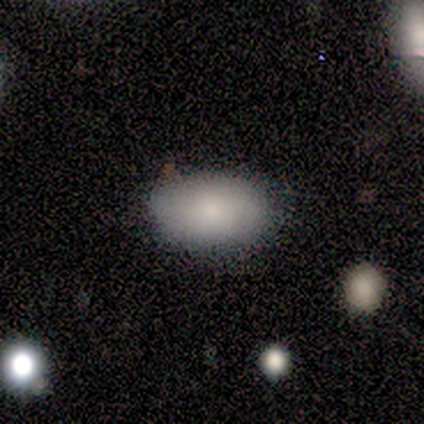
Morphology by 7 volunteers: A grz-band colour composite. It shows a smooth galaxy with no disk features (71%) that is in between round and cigar-shaped (100%). Merging: none (67%).